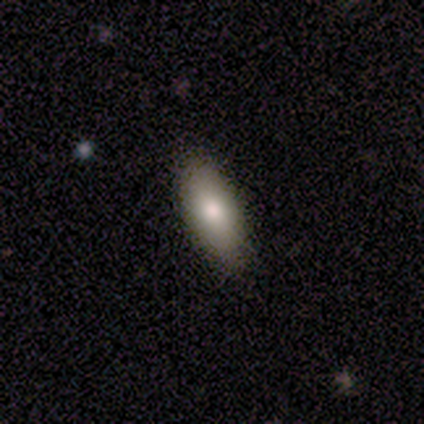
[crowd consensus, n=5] A smooth galaxy with no disk features (100%) that is in between round and cigar-shaped (100%). Merging: none (100%).